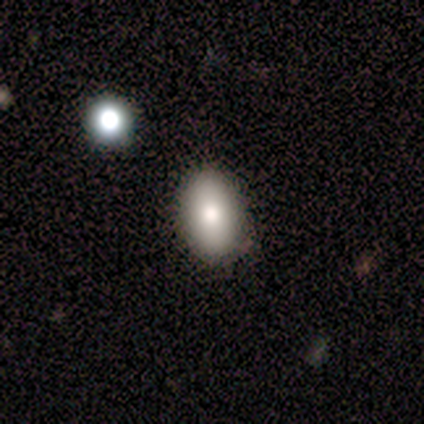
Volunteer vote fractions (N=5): A smooth galaxy with no disk features (80%) that is in between round and cigar-shaped (100%). Merging: none (80%).